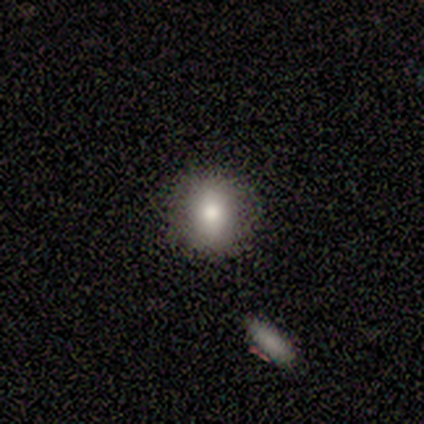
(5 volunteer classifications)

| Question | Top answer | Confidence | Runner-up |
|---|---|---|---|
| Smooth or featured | smooth | 60% | featured or disk (40%) |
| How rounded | round | 67% | in between (33%) |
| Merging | none | 100% | — |